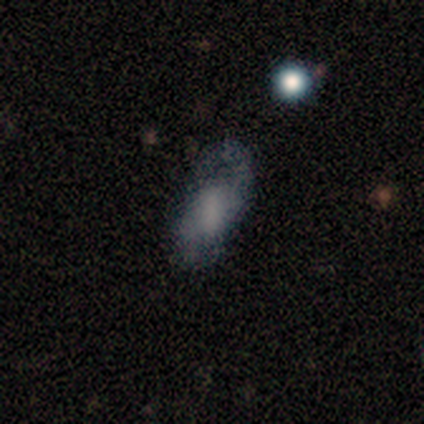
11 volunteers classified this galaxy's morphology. smooth-or-featured: featured or disk: 64% | smooth: 36% | star or artifact: 0%
  disk-edge-on: no: 100% | yes: 0%
    bar: weak: 57% | no: 29% | strong: 14%
    has-spiral-arms: yes: 71% | no: 29%
      spiral-winding: loose: 60% | medium: 40% | tight: 0%
      spiral-arm-count: 2: 100% | 1: 0% | 3: 0% | 4: 0% | more than 4: 0% | can't tell: 0%
    bulge-size: none: 43% | large: 29% | moderate: 14% | small: 14% | dominant: 0%
  merging: none: 55% | minor disturbance: 27% | major disturbance: 9% | merger: 9%